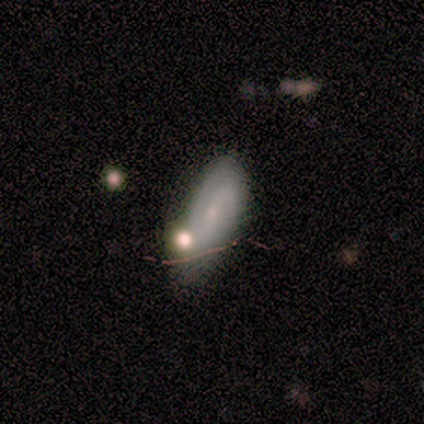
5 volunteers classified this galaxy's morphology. featured or disk 60%, smooth 40%, star or artifact 0%. Down the decision tree: edge-on disk — no (100%); bar — no (67%); spiral arms — no (67%); bulge size — none (67%); merging — none (40%, tied with merger).